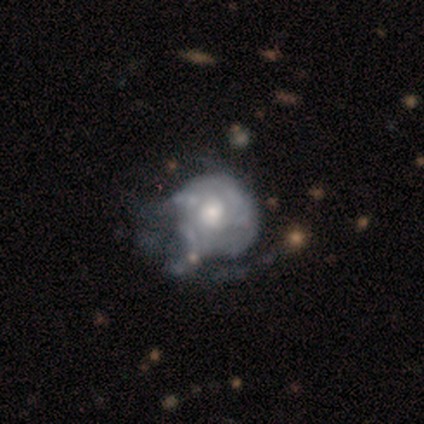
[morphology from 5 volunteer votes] This appears to be a smooth galaxy with no disk features (40%, tied with featured or disk) that is round (50%, tied with in between). Merging: major disturbance (50%).